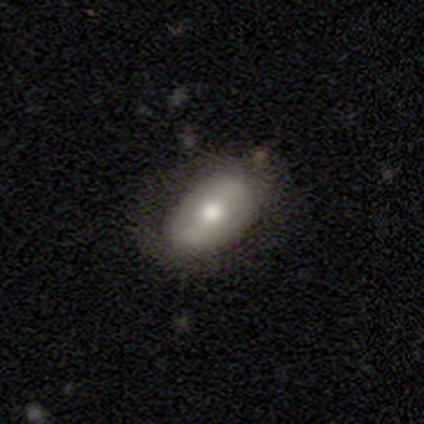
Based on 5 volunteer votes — Smooth or featured? smooth (60%)
How rounded? in between (100%)
Merging? none (80%)